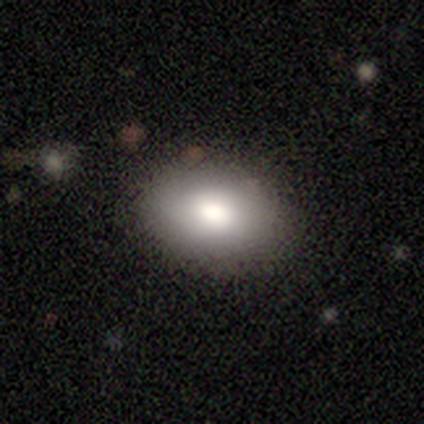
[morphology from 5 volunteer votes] Smooth or featured: smooth — 60% (featured or disk — 40%)
How rounded: round — 67% (in between — 33%)
Merging: none — 80% (minor disturbance — 20%)